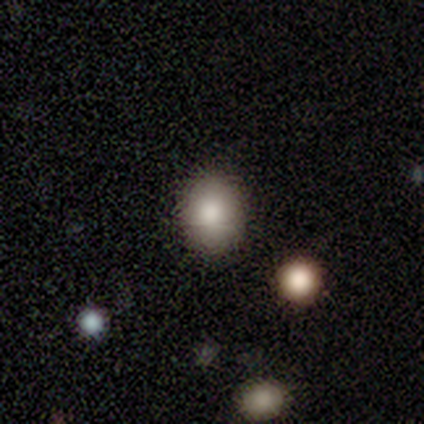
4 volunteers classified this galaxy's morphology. Volunteers were most divided on "how rounded": round: 75%, in between: 25%, cigar-shaped: 0%. More confident: smooth or featured — smooth (100%); merging — none (100%).